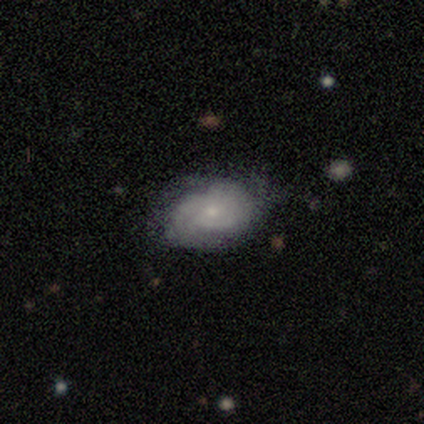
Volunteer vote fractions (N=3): A smooth galaxy with no disk features (67%) that is in between round and cigar-shaped (100%). Merging: none (67%).